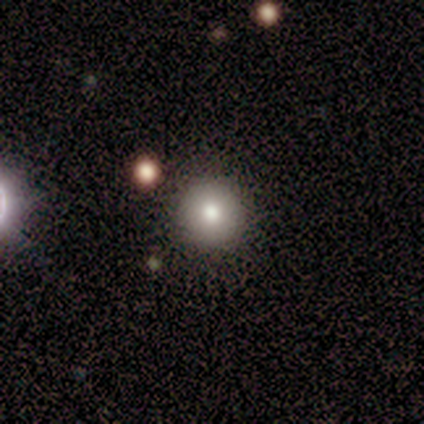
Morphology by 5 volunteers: A star or artifact, not a galaxy (60%).

Vote fractions:
- Smooth or featured? star or artifact: 60% / smooth: 40% / featured or disk: 0%